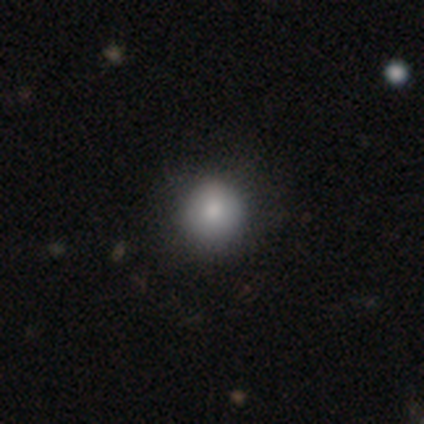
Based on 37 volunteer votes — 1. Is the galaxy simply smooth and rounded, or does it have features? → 89% smooth, 5% featured or disk, 5% star or artifact.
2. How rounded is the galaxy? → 91% round, 9% in between, 0% cigar-shaped.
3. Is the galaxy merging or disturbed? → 86% none, 14% minor disturbance, 0% major disturbance, 0% merger.